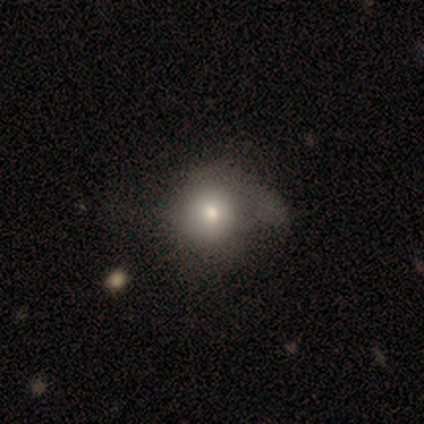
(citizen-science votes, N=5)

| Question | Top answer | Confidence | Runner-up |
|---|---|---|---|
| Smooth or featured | smooth | 60% | featured or disk (40%) |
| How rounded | round | 100% | — |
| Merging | major disturbance | 60% | none (40%) |